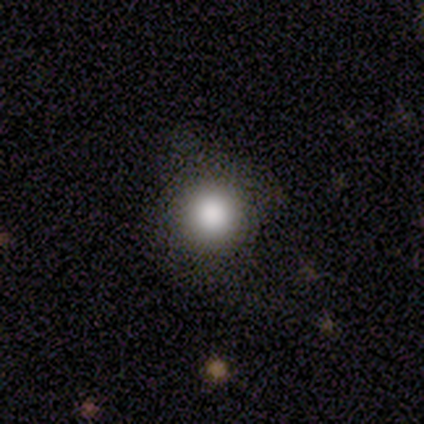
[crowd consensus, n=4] A smooth galaxy with no disk features (100%) that is round (100%).

Vote fractions:
- Smooth or featured? smooth: 100% / featured or disk: 0% / star or artifact: 0%
- How rounded? round: 100% / in between: 0% / cigar-shaped: 0%
- Merging? none: 50% / minor disturbance: 25% / major disturbance: 25% / merger: 0%